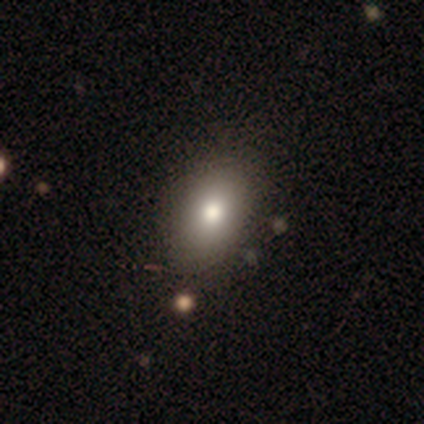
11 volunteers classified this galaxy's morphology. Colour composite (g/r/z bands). It shows a smooth galaxy with no disk features (91%) that is in between round and cigar-shaped (70%). Merging: none (82%).